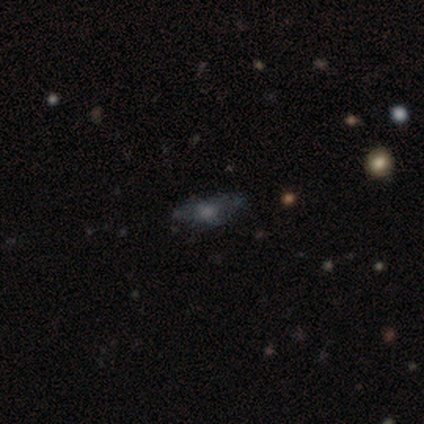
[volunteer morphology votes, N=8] Volunteers were most divided on "smooth or featured": smooth: 62%, featured or disk: 25%, star or artifact: 12%. More confident: how rounded — in between (80%); merging — none (71%).